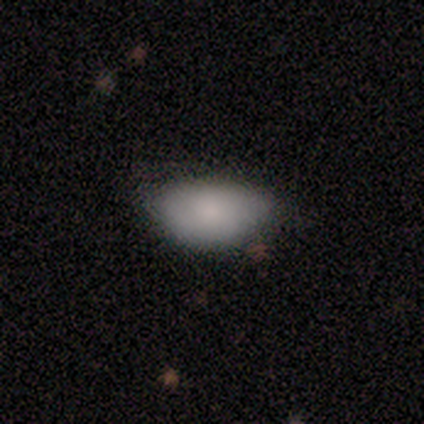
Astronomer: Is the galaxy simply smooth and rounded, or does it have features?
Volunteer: smooth — 100%.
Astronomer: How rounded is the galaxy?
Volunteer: in between — 100%.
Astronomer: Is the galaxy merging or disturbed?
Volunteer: none — 67%.